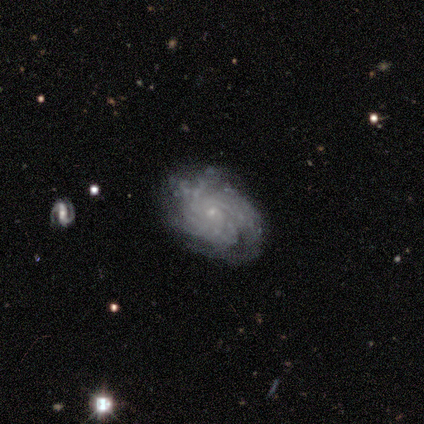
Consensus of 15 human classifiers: smooth-or-featured: featured or disk: 100% | smooth: 0% | star or artifact: 0%
  disk-edge-on: no: 100% | yes: 0%
    bar: no: 73% | strong: 20% | weak: 7%
    has-spiral-arms: yes: 100% | no: 0%
      spiral-winding: tight: 87% | medium: 7% | loose: 7%
      spiral-arm-count: can't tell: 47% | 4: 27% | more than 4: 13% | 1: 7% | 3: 7% | 2: 0%
    bulge-size: small: 87% | moderate: 7% | none: 7% | dominant: 0% | large: 0%
  merging: none: 60% | minor disturbance: 27% | major disturbance: 13% | merger: 0%